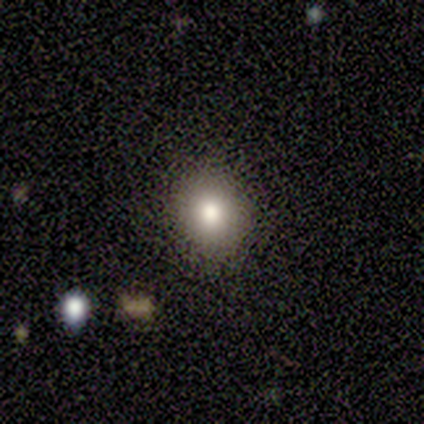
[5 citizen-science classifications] This is clearly a smooth galaxy (80%). How rounded: likely round (75%). Merging: clearly none (80%).